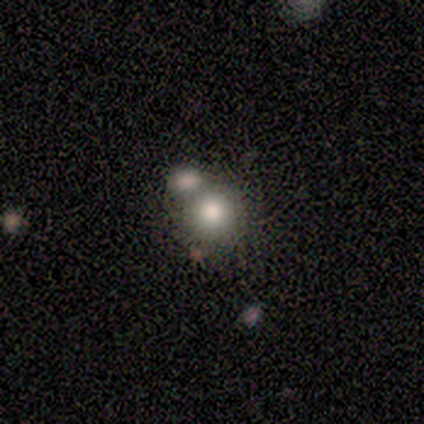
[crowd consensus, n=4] Volunteers were most divided on "merging": none: 50%, minor disturbance: 25%, merger: 25%, major disturbance: 0%. More confident: smooth or featured — smooth (100%); how rounded — round (100%).